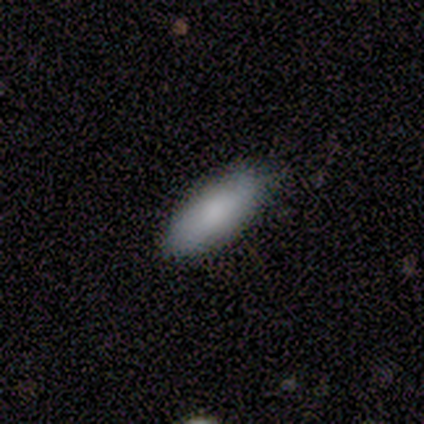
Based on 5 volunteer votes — Smooth or featured? smooth (80%)
How rounded? in between (100%)
Merging? none (80%)